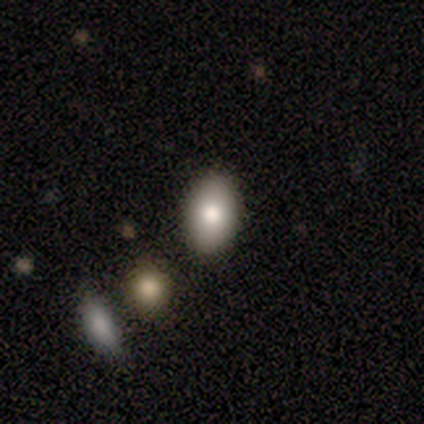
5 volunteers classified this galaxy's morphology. Q: Smooth or featured?
A: smooth (80%); runner-up: featured or disk (20%)
Q: How rounded?
A: in between (100%)
Q: Merging?
A: none (80%); runner-up: minor disturbance (20%)